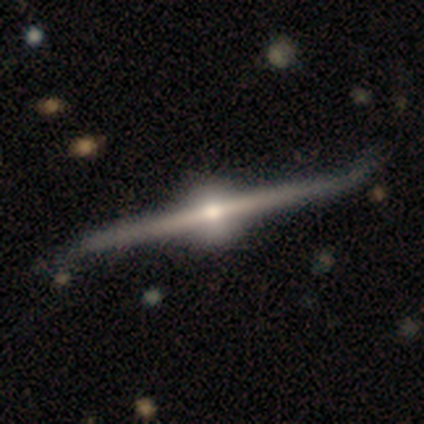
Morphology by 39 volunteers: Smooth or featured? featured or disk (87%)
Edge-on disk? yes (97%)
Edge-on bulge? rounded (100%)
Merging? none (39%)